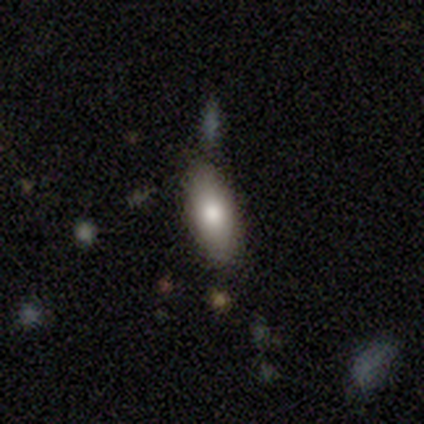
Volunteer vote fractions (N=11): A smooth galaxy with no disk features (73%) that is in between round and cigar-shaped (88%).

Vote fractions:
- Smooth or featured? smooth: 73% / featured or disk: 18% / star or artifact: 9%
- How rounded? in between: 88% / cigar-shaped: 12% / round: 0%
- Merging? none: 80% / minor disturbance: 20% / major disturbance: 0% / merger: 0%